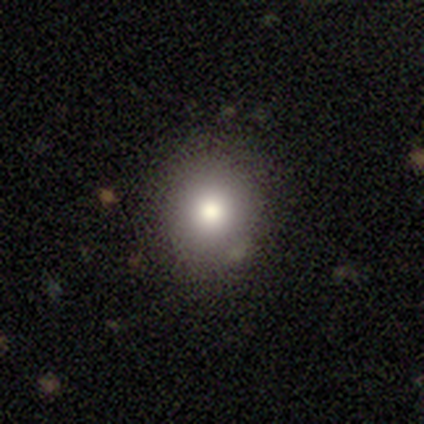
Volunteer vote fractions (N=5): A smooth galaxy with no disk features (80%) that is round (75%).

Vote fractions:
- Smooth or featured? smooth: 80% / featured or disk: 20% / star or artifact: 0%
- How rounded? round: 75% / in between: 25% / cigar-shaped: 0%
- Merging? none: 100% / minor disturbance: 0% / major disturbance: 0% / merger: 0%